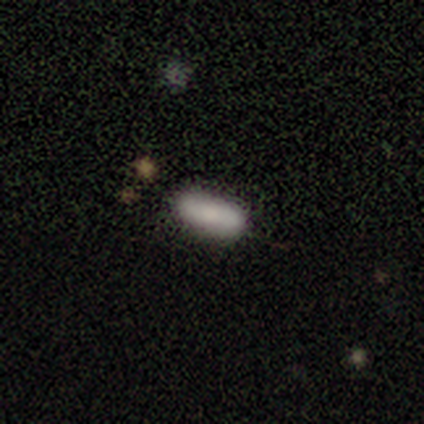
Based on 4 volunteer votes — Smooth or featured? 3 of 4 (75%) said smooth. How rounded? 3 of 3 (100%) said in between. Merging? 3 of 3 (100%) said none.